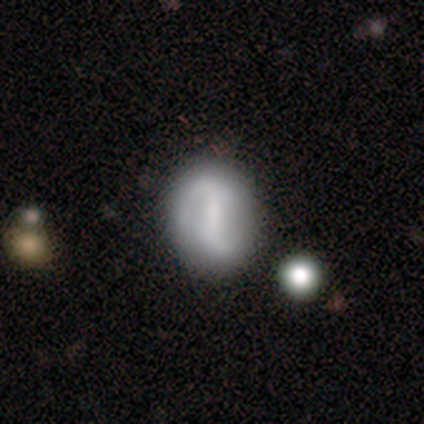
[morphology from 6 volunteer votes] A featured or disk galaxy (100%) with a strong bar (50%), 2 (100%) loose (60%) spiral arms (83%) and a small central bulge (50%, tied with none).

Vote fractions:
- Smooth or featured? featured or disk: 100% / smooth: 0% / star or artifact: 0%
- Edge-on disk? no: 100% / yes: 0%
- Bar? strong: 50% / weak: 33% / no: 17%
- Spiral arms? yes: 83% / no: 17%
- Spiral winding? loose: 60% / tight: 20% / medium: 20%
- Spiral arm count? 2: 100% / 1: 0% / 3: 0% / 4: 0% / more than 4: 0% / can't tell: 0%
- Bulge size? small: 50% (tied) / none: 50% (tied) / dominant: 0% / large: 0% / moderate: 0%
- Merging? none: 83% / minor disturbance: 17% / major disturbance: 0% / merger: 0%